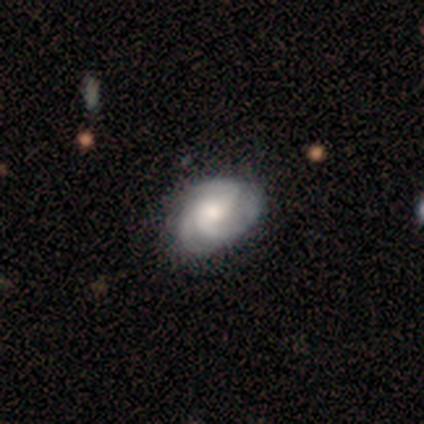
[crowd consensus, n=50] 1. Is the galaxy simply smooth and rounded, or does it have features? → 70% featured or disk, 26% smooth, 4% star or artifact.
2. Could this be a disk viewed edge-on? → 97% no, 3% yes.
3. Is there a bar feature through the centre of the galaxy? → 88% no, 6% strong, 6% weak.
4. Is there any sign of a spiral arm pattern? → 97% yes, 3% no.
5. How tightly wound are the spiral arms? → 45% medium, 42% tight, 12% loose.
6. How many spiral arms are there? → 79% 3, 15% can't tell, 6% 2, 0% 1, 0% 4, 0% more than 4.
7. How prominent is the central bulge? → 59% moderate, 24% large, 6% dominant, 6% small, 6% none.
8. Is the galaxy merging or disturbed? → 62% none, 33% minor disturbance, 4% major disturbance, 0% merger.